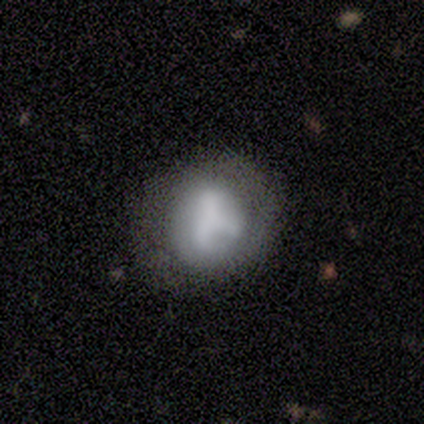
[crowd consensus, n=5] This appears to be a smooth galaxy with no disk features (60%) that is round (67%). Merging: none (50%).